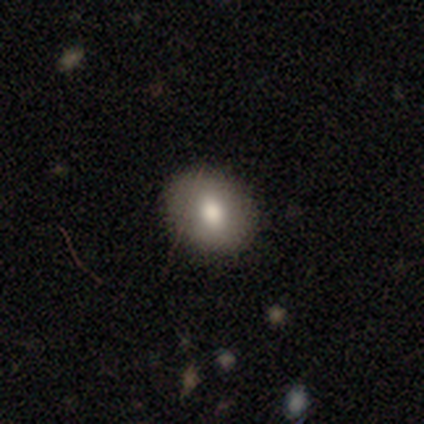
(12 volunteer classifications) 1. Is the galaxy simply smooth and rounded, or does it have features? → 67% smooth, 25% featured or disk, 8% star or artifact.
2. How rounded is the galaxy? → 50% round (tied), 50% in between (tied), 0% cigar-shaped.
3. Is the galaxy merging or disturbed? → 91% none, 9% minor disturbance, 0% major disturbance, 0% merger.